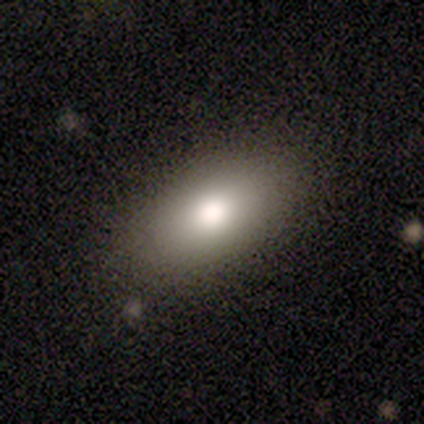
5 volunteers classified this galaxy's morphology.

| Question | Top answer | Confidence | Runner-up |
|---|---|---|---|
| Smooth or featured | smooth | 80% | featured or disk (20%) |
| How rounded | in between | 100% | — |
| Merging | none | 80% | major disturbance (20%) |